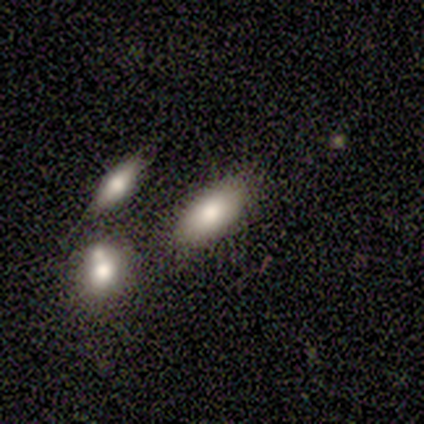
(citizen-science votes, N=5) A smooth galaxy with no disk features (60%) that is in between round and cigar-shaped (67%).

Vote fractions:
- Smooth or featured? smooth: 60% / star or artifact: 40% / featured or disk: 0%
- How rounded? in between: 67% / round: 33% / cigar-shaped: 0%
- Merging? none: 100% / minor disturbance: 0% / major disturbance: 0% / merger: 0%